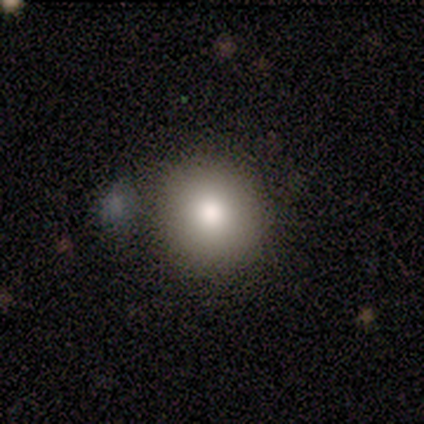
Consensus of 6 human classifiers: Morphology: type=smooth (100%); roundness=round (100%); merging=none (67%).